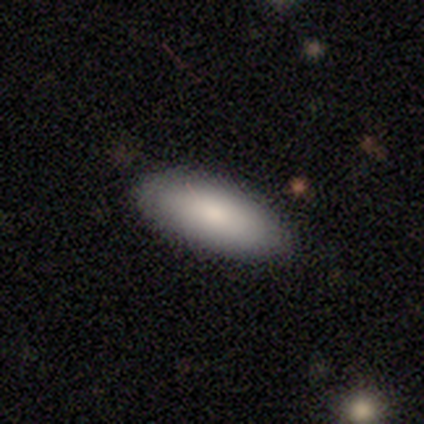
Overall: smooth (87%). How rounded: in between (76%). Merging: none (92%).